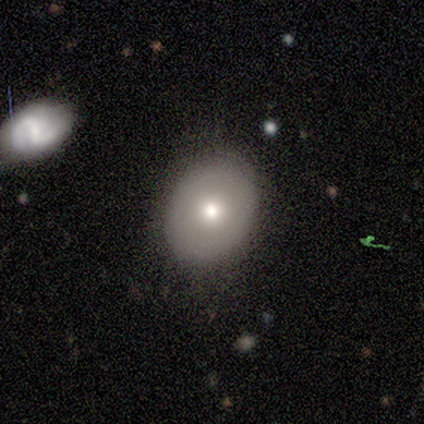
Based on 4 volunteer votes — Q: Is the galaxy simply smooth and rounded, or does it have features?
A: smooth — 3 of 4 (75%).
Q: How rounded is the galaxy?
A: round — 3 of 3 (100%).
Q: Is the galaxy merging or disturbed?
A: none — 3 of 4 (75%).